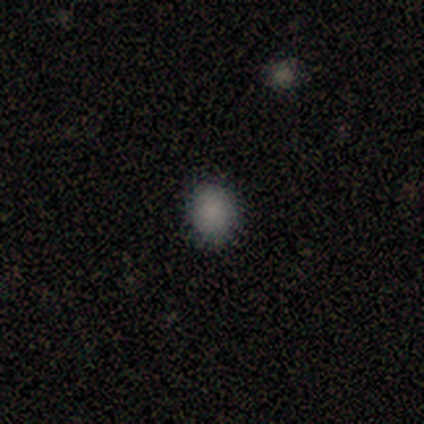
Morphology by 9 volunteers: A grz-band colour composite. It shows a smooth galaxy with no disk features (89%) that is round (88%). Merging: none (88%).